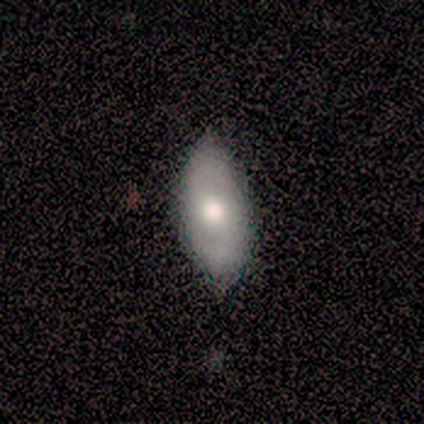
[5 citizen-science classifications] Overall: featured or disk (60%; smooth 40%). Edge-on disk: no (67%; yes 33%). Bar: no (100%). Spiral arms: no (100%). Bulge size: moderate (100%). Merging: none (80%).